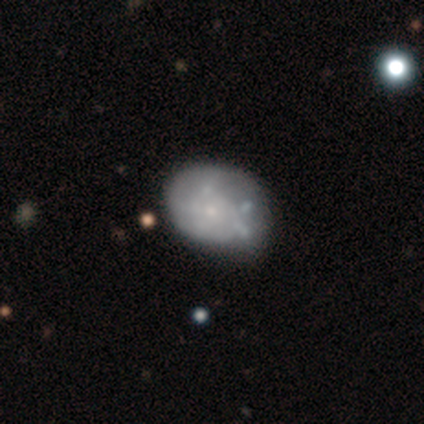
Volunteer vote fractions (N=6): Q: Smooth or featured?
A: featured or disk (67%); runner-up: smooth (33%)
Q: Edge-on disk?
A: no (100%)
Q: Bar?
A: no (75%); runner-up: weak (25%)
Q: Spiral arms?
A: no (75%); runner-up: yes (25%)
Q: Bulge size?
A: small (50%); tied with: none (50%)
Q: Merging?
A: none (83%); runner-up: minor disturbance (17%)